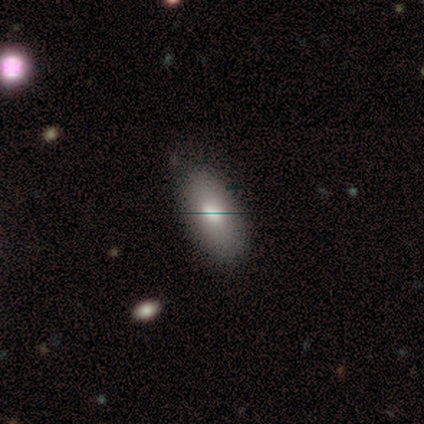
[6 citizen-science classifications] Smooth or featured? smooth (67%)
How rounded? in between (75%)
Merging? none (83%)